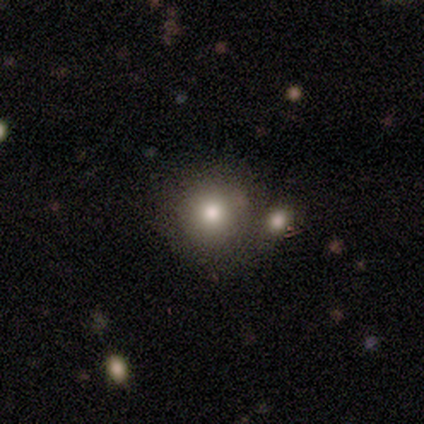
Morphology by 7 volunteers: A smooth galaxy with no disk features (57%) that is round (100%).

Vote fractions:
- Smooth or featured? smooth: 57% / star or artifact: 29% / featured or disk: 14%
- How rounded? round: 100% / in between: 0% / cigar-shaped: 0%
- Merging? none: 40% (tied) / minor disturbance: 40% (tied) / merger: 20% / major disturbance: 0%